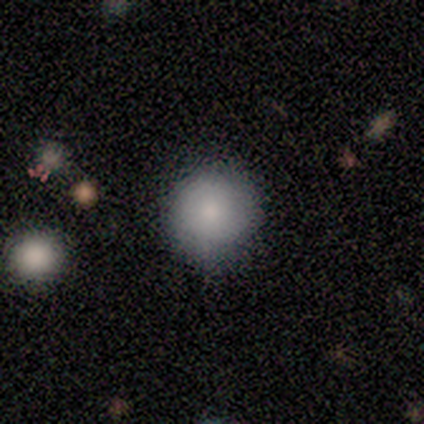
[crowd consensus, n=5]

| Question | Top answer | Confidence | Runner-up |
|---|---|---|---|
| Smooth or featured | smooth | 100% | — |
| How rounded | round | 80% | cigar-shaped (20%) |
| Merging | none | 80% | minor disturbance (20%) |